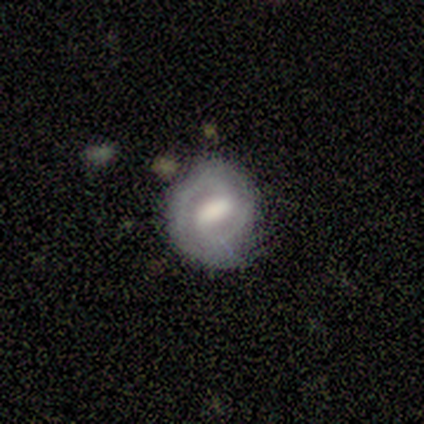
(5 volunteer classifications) featured or disk 100%, smooth 0%, star or artifact 0%. Down the decision tree: edge-on disk — no (100%); bar — strong (80%); spiral arms — yes (100%); spiral arm count — 2 (100%); spiral winding — tight (80%); bulge size — large (40%, tied with small); merging — none (80%).